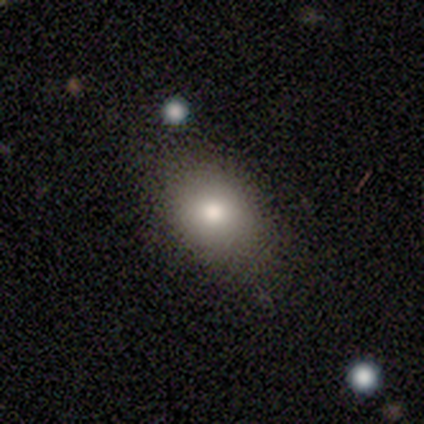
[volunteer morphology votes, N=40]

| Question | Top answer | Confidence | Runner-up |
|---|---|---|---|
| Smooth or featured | smooth | 80% | featured or disk (15%) |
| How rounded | in between | 56% | round (44%) |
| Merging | none | 68% | minor disturbance (5%) |